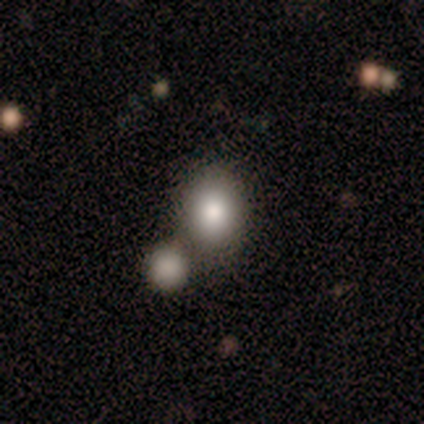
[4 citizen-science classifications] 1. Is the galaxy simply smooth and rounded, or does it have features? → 100% smooth, 0% featured or disk, 0% star or artifact.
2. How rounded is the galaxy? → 50% round (tied), 50% in between (tied), 0% cigar-shaped.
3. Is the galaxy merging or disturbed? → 75% none, 25% minor disturbance, 0% major disturbance, 0% merger.